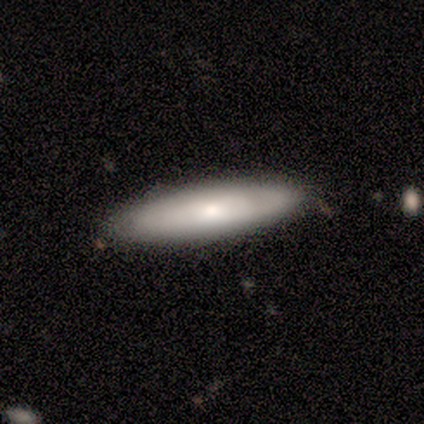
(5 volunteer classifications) Smooth or featured?
  - smooth: 60% *
  - featured or disk: 20%
  - star or artifact: 20%
How rounded?
  - cigar-shaped: 100% *
  - round: 0%
  - in between: 0%
Merging?
  - none: 75% *
  - minor disturbance: 25%
  - major disturbance: 0%
  - merger: 0%